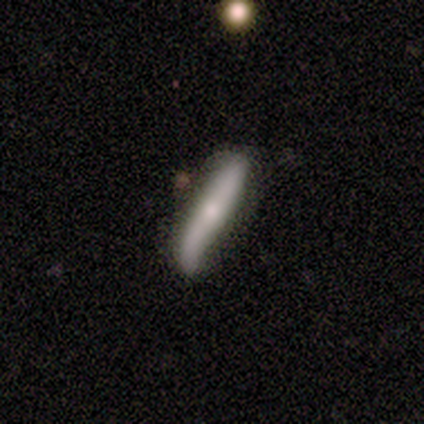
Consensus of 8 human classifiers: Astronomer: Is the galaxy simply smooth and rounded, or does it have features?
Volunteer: featured or disk — 75%.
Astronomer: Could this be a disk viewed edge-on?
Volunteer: yes — 67%.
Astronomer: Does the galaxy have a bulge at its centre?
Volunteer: none — 50%, tied with rounded at 50%.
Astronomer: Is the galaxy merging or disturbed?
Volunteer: none — 62%.